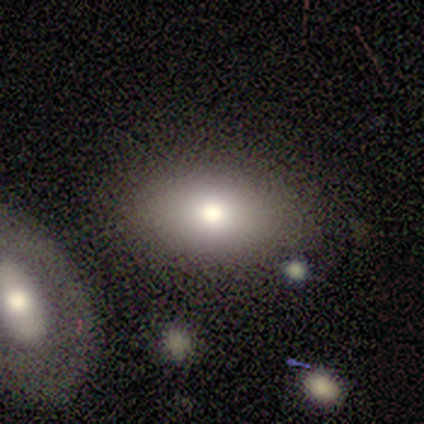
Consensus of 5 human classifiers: Volunteers were most divided on "merging": none: 60%, major disturbance: 20%, merger: 20%, minor disturbance: 0%. More confident: smooth or featured — smooth (100%); how rounded — in between (80%).